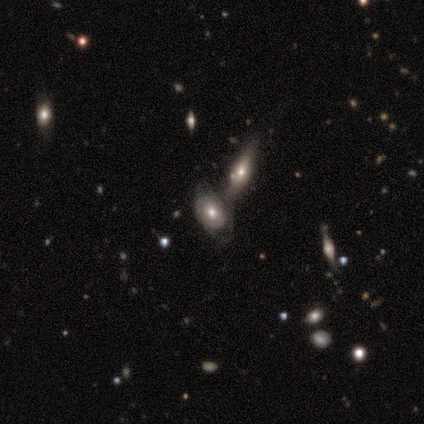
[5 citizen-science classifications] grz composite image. It shows a featured or disk galaxy (80%) with no bar (100%), no spiral arms (75%) and a moderate central bulge (75%). Merging: merger (60%).